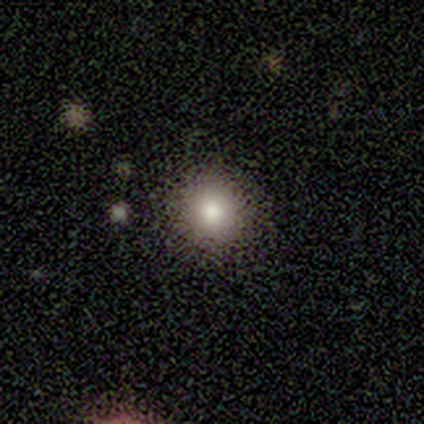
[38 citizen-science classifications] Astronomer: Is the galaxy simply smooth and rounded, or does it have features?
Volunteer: smooth — 71%.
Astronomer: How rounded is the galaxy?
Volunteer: round — 96%.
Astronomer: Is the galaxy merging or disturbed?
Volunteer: none — 97%.